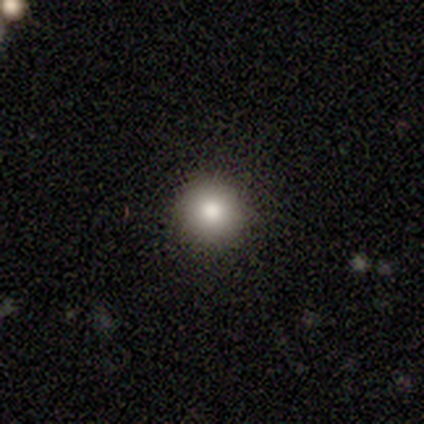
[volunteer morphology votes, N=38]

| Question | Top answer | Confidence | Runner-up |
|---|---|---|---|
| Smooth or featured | smooth | 79% | star or artifact (13%) |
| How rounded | round | 97% | cigar-shaped (3%) |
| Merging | none | 94% | minor disturbance (3%) |